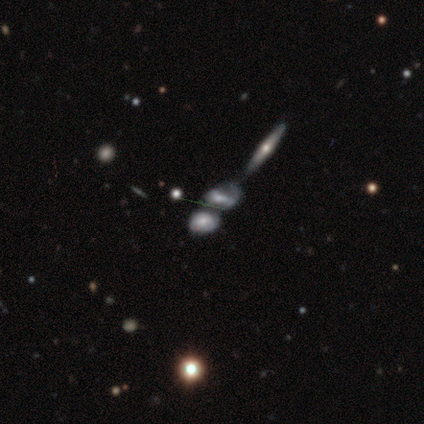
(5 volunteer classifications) Smooth or featured? 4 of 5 (80%) said featured or disk. Edge-on disk? 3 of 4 (75%) said no. Bar? 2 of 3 (67%) said no. Spiral arms? 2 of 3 (67%) said yes. Spiral winding? 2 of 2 (100%) said medium. Spiral arm count? 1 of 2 (50%, tied with can't tell) said 1. Bulge size? 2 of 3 (67%) said moderate. Merging? 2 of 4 (50%) said merger.